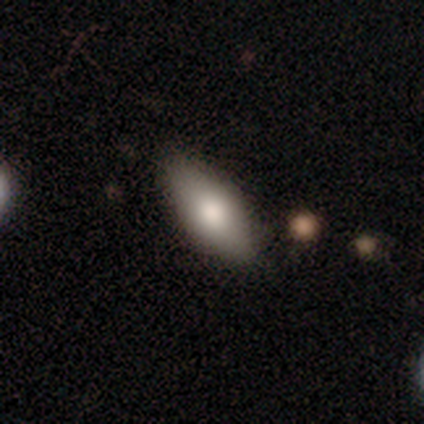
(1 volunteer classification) Smooth or featured? featured or disk (100%)
Edge-on disk? no (100%)
Bar? no (100%)
Spiral arms? no (100%)
Bulge size? large (100%)
Merging? none (100%)